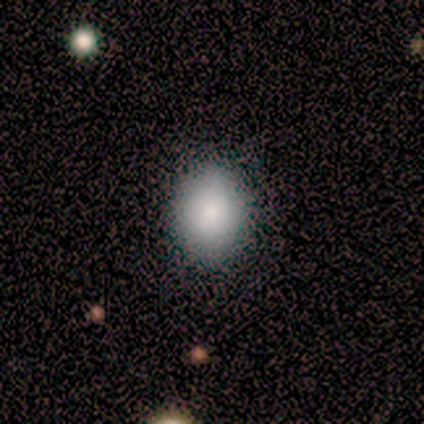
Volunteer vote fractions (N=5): A smooth galaxy with no disk features (100%) that is in between round and cigar-shaped (80%). Merging: none (60%).